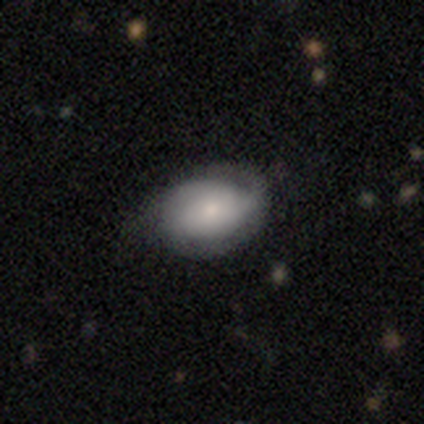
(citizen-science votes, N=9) A smooth galaxy with no disk features (44%) that is in between round and cigar-shaped (100%).

Vote fractions:
- Smooth or featured? smooth: 44% / featured or disk: 33% / star or artifact: 22%
- How rounded? in between: 100% / round: 0% / cigar-shaped: 0%
- Merging? minor disturbance: 71% / none: 29% / major disturbance: 0% / merger: 0%